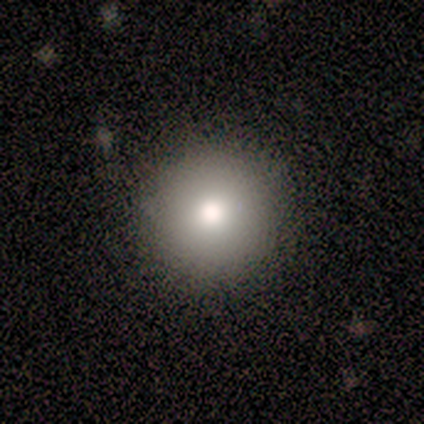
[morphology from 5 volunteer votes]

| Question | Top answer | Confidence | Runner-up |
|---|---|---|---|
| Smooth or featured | smooth | 100% | — |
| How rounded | round | 100% | — |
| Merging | none | 100% | — |